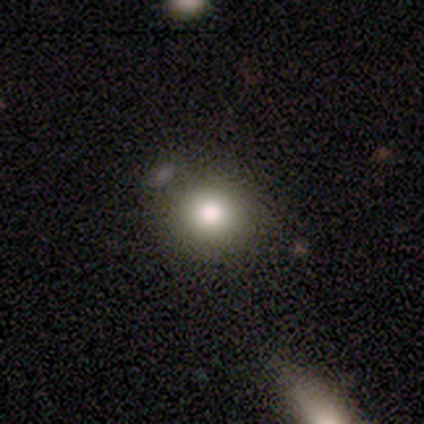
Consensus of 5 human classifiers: Overall: smooth (80%). How rounded: round (100%). Merging: none (100%).